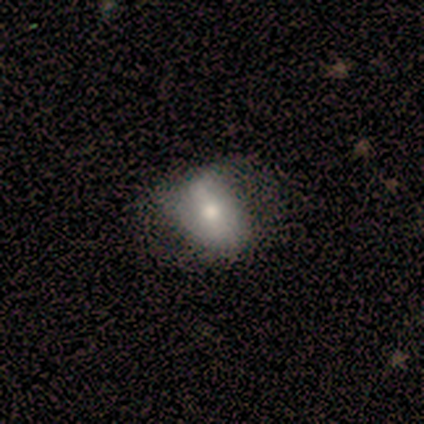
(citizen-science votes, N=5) A smooth galaxy with no disk features (60%) that is in between round and cigar-shaped (100%).

Vote fractions:
- Smooth or featured? smooth: 60% / featured or disk: 40% / star or artifact: 0%
- How rounded? in between: 100% / round: 0% / cigar-shaped: 0%
- Merging? none: 100% / minor disturbance: 0% / major disturbance: 0% / merger: 0%